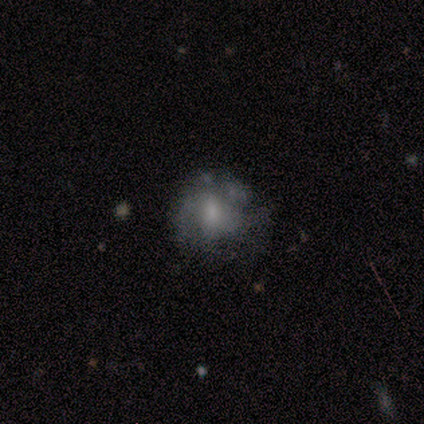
smooth 40% (tied), star or artifact 40% (tied), featured or disk 20%. Down the decision tree: how rounded — round (100%); merging — major disturbance (100%).